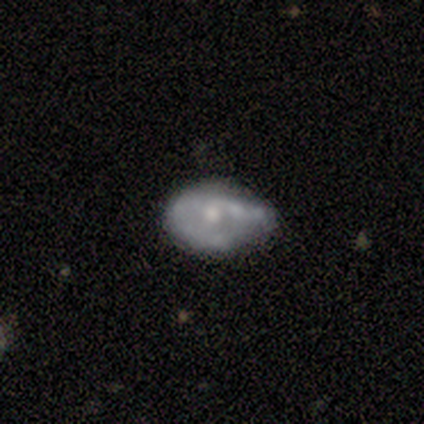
Smooth or featured? featured or disk (57%)
Edge-on disk? no (100%)
Bar? no (75%)
Spiral arms? no (75%)
Bulge size? moderate (50%, tied with small)
Merging? minor disturbance (83%)